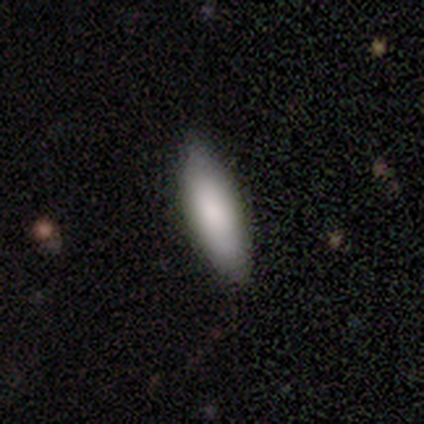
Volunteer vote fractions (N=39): Morphology: type=smooth (77%); roundness=cigar-shaped (50%); merging=none (84%).